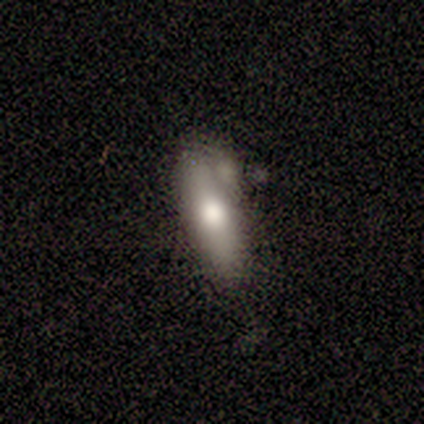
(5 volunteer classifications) Smooth or featured? 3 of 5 (60%) said smooth. How rounded? 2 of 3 (67%) said cigar-shaped. Merging? 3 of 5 (60%) said none.